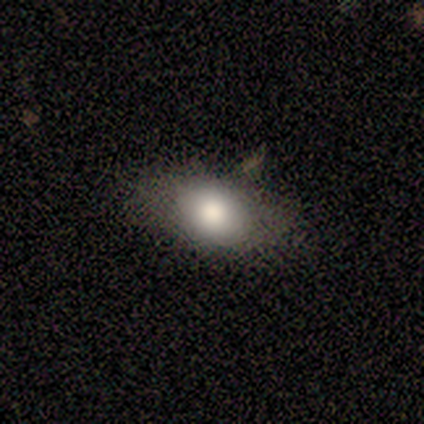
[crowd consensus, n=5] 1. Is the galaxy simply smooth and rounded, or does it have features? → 40% smooth (tied), 40% featured or disk (tied), 20% star or artifact.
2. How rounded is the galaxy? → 100% in between, 0% round, 0% cigar-shaped.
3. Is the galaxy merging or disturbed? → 100% none, 0% minor disturbance, 0% major disturbance, 0% merger.